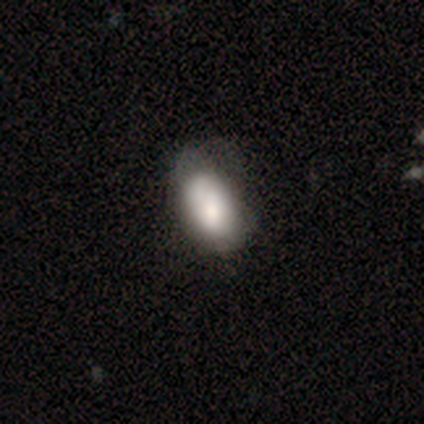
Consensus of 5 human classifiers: Smooth or featured? 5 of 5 (100%) said smooth. How rounded? 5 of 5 (100%) said in between. Merging? 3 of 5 (60%) said none.